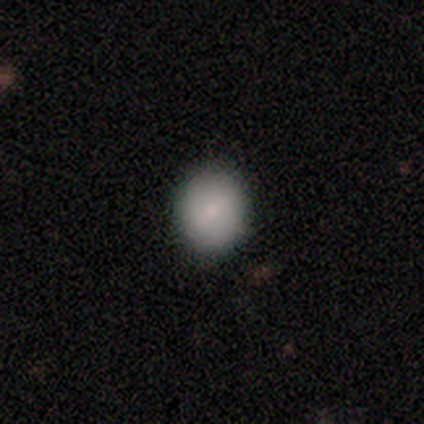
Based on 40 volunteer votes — Q: Smooth or featured?
A: smooth (90%); runner-up: featured or disk (5%)
Q: How rounded?
A: round (86%); runner-up: in between (11%)
Q: Merging?
A: none (95%); runner-up: minor disturbance (3%)